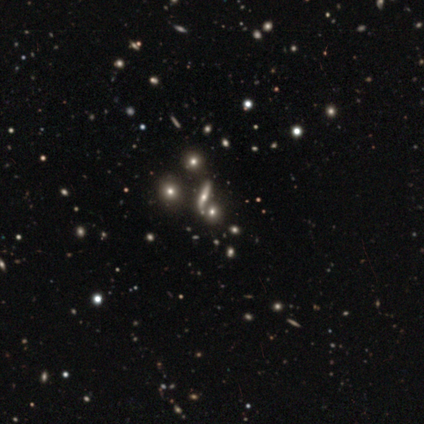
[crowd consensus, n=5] Q: Smooth or featured?
A: star or artifact (80%); runner-up: featured or disk (20%)